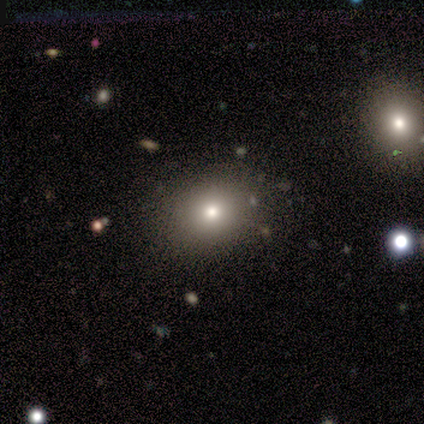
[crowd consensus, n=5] Q: Smooth or featured?
A: smooth (80%); runner-up: star or artifact (20%)
Q: How rounded?
A: round (50%); tied with: in between (50%)
Q: Merging?
A: none (100%)